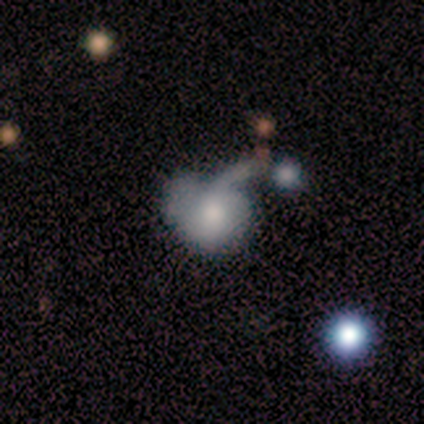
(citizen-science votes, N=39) Morphology: type=smooth (59%); roundness=in between (52%); merging=major disturbance (39%).